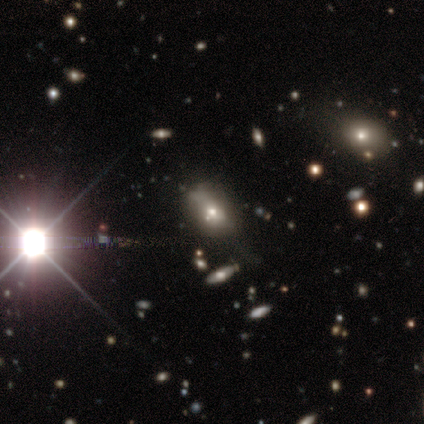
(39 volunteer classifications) smooth_or_featured: star or artifact (p=0.54) [alt: smooth p=0.36]